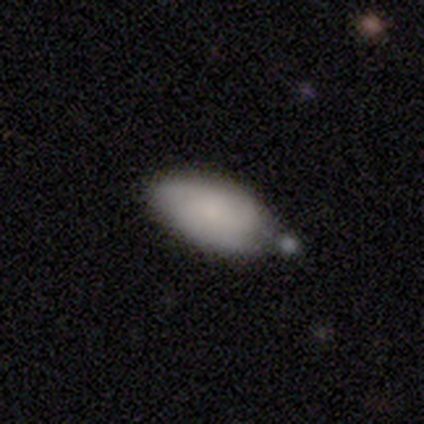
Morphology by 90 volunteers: Overall: smooth (76%). How rounded: in between (96%). Merging: none (54%; minor disturbance 29%).